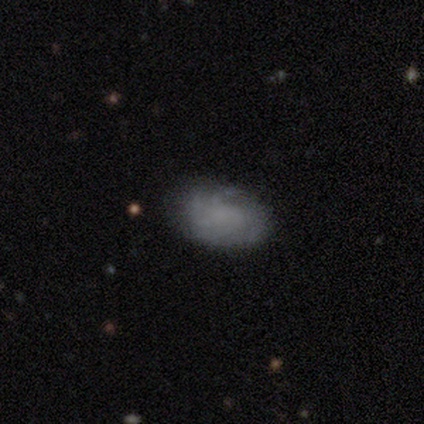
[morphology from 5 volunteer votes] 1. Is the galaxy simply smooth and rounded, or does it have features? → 60% smooth, 40% featured or disk, 0% star or artifact.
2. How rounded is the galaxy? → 100% in between, 0% round, 0% cigar-shaped.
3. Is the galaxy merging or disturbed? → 60% none, 40% minor disturbance, 0% major disturbance, 0% merger.